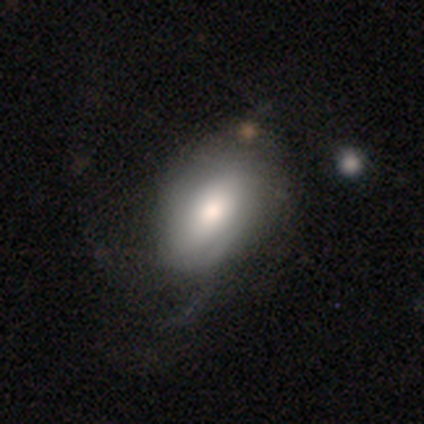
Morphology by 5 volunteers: Smooth or featured?
  - smooth: 60% *
  - featured or disk: 40%
  - star or artifact: 0%
How rounded?
  - in between: 67% *
  - round: 33%
  - cigar-shaped: 0%
Merging?
  - none: 100% *
  - minor disturbance: 0%
  - major disturbance: 0%
  - merger: 0%